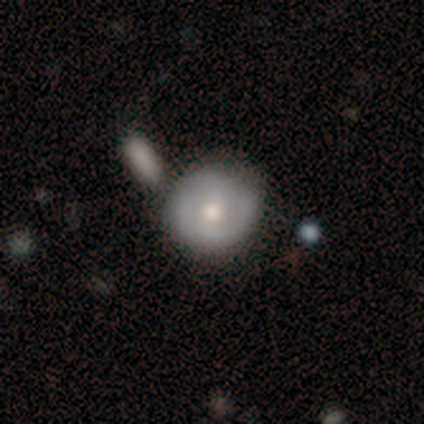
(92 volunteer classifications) Smooth or featured? smooth (47%)
How rounded? round (91%)
Merging? none (65%)